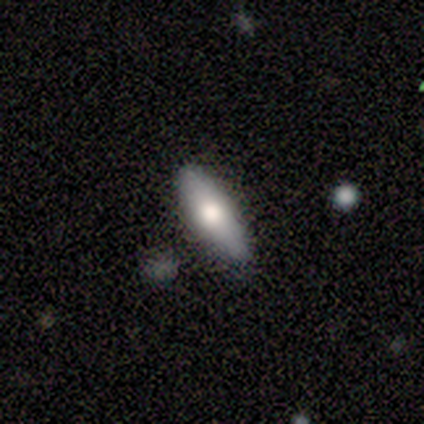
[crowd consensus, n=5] Smooth or featured?
  - smooth: 80% *
  - featured or disk: 20%
  - star or artifact: 0%
How rounded?
  - in between: 100% *
  - round: 0%
  - cigar-shaped: 0%
Merging?
  - none: 80% *
  - minor disturbance: 20%
  - major disturbance: 0%
  - merger: 0%